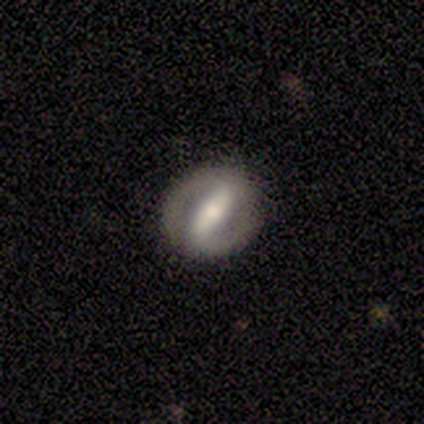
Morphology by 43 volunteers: A featured or disk galaxy (79%) with a strong bar (94%), 2 (92%) tight (48%) spiral arms (78%) and a moderate central bulge (72%).

Vote fractions:
- Smooth or featured? featured or disk: 79% / smooth: 19% / star or artifact: 2%
- Edge-on disk? no: 94% / yes: 6%
- Bar? strong: 94% / weak: 3% / no: 3%
- Spiral arms? yes: 78% / no: 22%
- Spiral winding? tight: 48% / medium: 40% / loose: 12%
- Spiral arm count? 2: 92% / 1: 4% / can't tell: 4% / 3: 0% / 4: 0% / more than 4: 0%
- Bulge size? moderate: 72% / large: 12% / small: 12% / none: 3% / dominant: 0%
- Merging? none: 79% / minor disturbance: 17% / major disturbance: 5% / merger: 0%